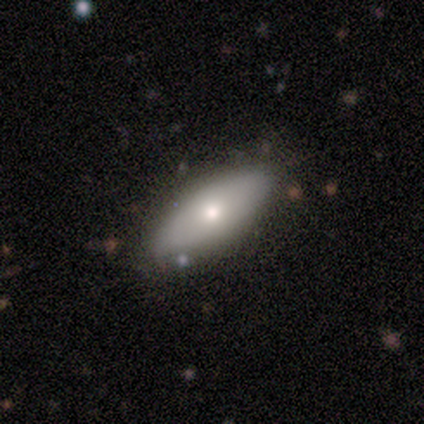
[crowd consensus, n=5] Smooth or featured?
  - smooth: 80% *
  - featured or disk: 20%
  - star or artifact: 0%
How rounded?
  - in between: 75% *
  - cigar-shaped: 25%
  - round: 0%
Merging?
  - none: 80% *
  - minor disturbance: 20%
  - major disturbance: 0%
  - merger: 0%